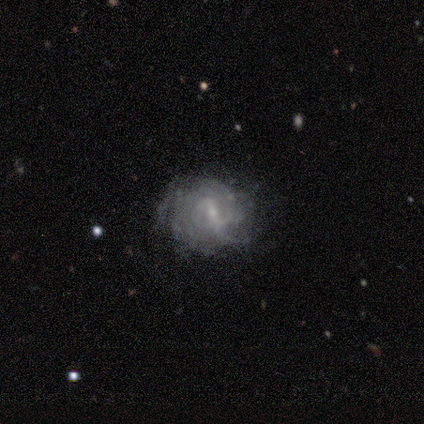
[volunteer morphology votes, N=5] Q: Smooth or featured?
A: featured or disk (80%); runner-up: smooth (20%)
Q: Edge-on disk?
A: no (100%)
Q: Bar?
A: weak (75%); runner-up: strong (25%)
Q: Spiral arms?
A: yes (75%); runner-up: no (25%)
Q: Spiral winding?
A: tight (67%); runner-up: medium (33%)
Q: Spiral arm count?
A: 3 (33%); tied with: more than 4 (33%); can't tell (33%)
Q: Bulge size?
A: small (75%); runner-up: none (25%)
Q: Merging?
A: none (60%); runner-up: minor disturbance (20%)